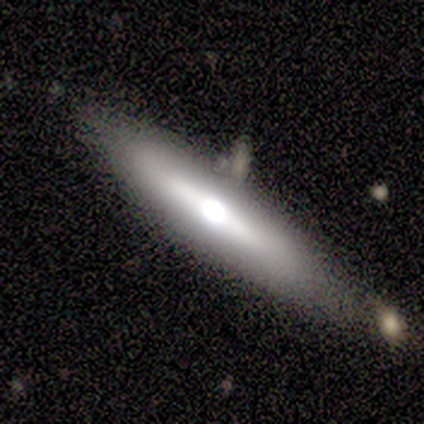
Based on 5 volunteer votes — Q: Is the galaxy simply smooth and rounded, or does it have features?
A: featured or disk — 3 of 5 (60%).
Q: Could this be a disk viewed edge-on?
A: yes — 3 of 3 (100%).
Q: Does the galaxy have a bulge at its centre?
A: rounded — 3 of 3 (100%).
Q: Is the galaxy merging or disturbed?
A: none — 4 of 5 (80%).